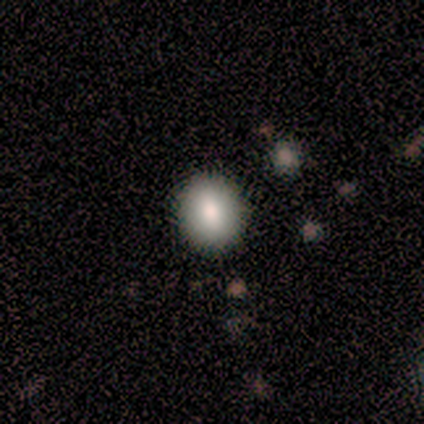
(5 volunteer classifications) A smooth galaxy with no disk features (40%, tied with featured or disk) that is round (100%). Merging: none (100%).